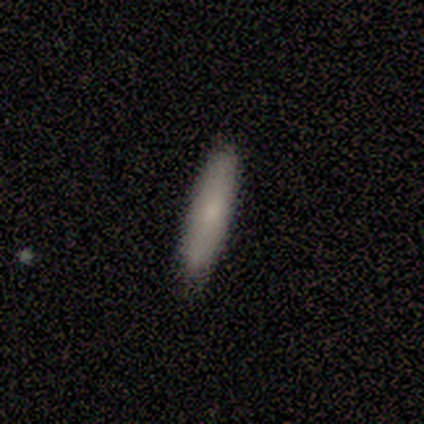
A smooth galaxy with no disk features (85%) that is cigar-shaped (64%). Merging: none (85%).